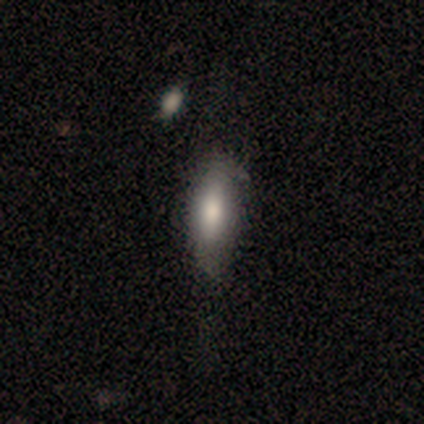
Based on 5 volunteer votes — This appears to be a smooth galaxy with no disk features (100%) that is in between round and cigar-shaped (80%). Merging: minor disturbance (60%).